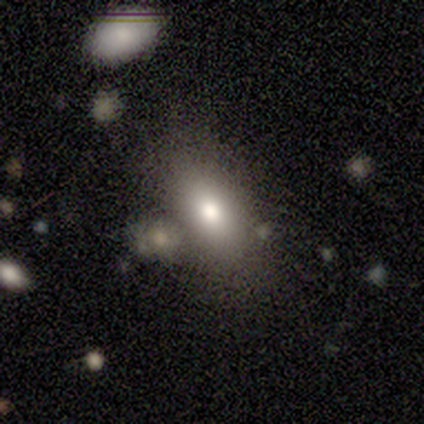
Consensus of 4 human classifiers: Smooth or featured: smooth — 75% (star or artifact — 25%)
How rounded: in between — 100%
Merging: none — 33% (tied with minor disturbance — 33%; merger — 33%)